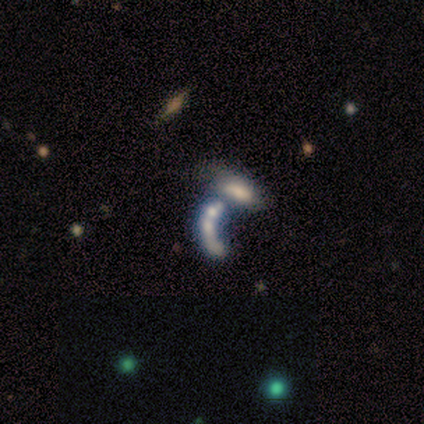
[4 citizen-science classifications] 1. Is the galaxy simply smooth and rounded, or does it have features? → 75% featured or disk, 25% smooth, 0% star or artifact.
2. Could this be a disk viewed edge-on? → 100% no, 0% yes.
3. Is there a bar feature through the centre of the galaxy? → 100% no, 0% strong, 0% weak.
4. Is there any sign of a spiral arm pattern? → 100% no, 0% yes.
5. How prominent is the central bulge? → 33% large (tied), 33% small (tied), 33% none (tied), 0% dominant, 0% moderate.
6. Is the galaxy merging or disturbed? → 50% merger, 25% none, 25% major disturbance, 0% minor disturbance.